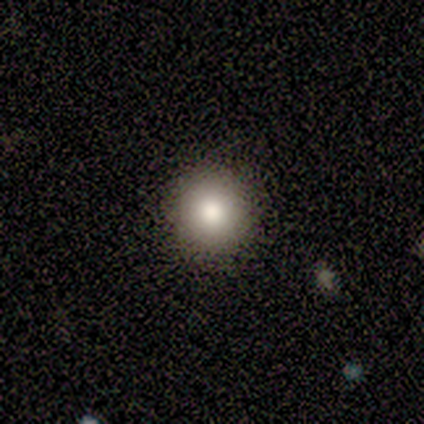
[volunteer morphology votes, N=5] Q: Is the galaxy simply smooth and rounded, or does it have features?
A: smooth — 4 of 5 (80%).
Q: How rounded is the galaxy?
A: round — 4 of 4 (100%).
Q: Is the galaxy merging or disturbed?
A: none — 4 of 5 (80%).